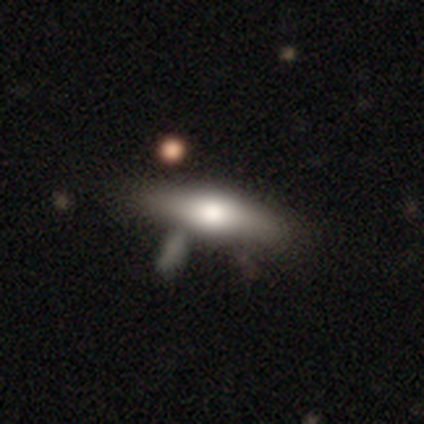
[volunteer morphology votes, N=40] Smooth or featured?
  - smooth: 57% *
  - featured or disk: 38%
  - star or artifact: 5%
How rounded?
  - in between: 61% *
  - cigar-shaped: 39%
  - round: 0%
Merging?
  - none: 37% *
  - minor disturbance: 18%
  - merger: 18%
  - major disturbance: 3%